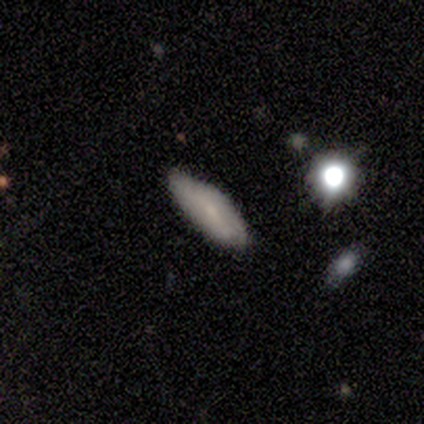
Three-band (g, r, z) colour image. It shows a smooth galaxy with no disk features (100%) that is in between round and cigar-shaped (40%, tied with cigar-shaped). Merging: none (80%).